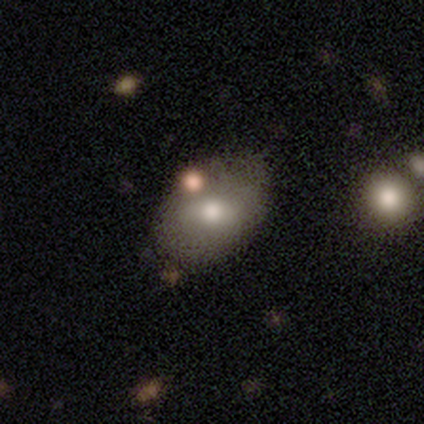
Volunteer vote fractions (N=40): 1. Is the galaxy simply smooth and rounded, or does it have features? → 65% smooth, 28% featured or disk, 8% star or artifact.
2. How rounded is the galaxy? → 85% in between, 15% round, 0% cigar-shaped.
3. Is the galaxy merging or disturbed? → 54% none, 14% merger, 11% minor disturbance, 8% major disturbance.